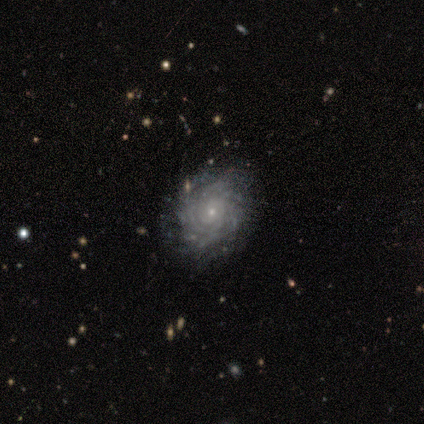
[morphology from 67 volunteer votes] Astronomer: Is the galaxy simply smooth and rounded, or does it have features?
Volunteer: featured or disk — 82%.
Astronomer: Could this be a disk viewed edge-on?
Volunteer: no — 98%.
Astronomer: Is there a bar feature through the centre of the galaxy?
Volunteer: no — 89%.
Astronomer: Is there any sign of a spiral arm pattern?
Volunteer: yes — 94%.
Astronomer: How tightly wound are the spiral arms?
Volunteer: tight — 73%.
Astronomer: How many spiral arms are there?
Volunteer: more than 4 — 43% (runner-up: can't tell, 35%).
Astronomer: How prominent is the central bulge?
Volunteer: small — 89%.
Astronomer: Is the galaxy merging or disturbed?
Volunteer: none — 70%.